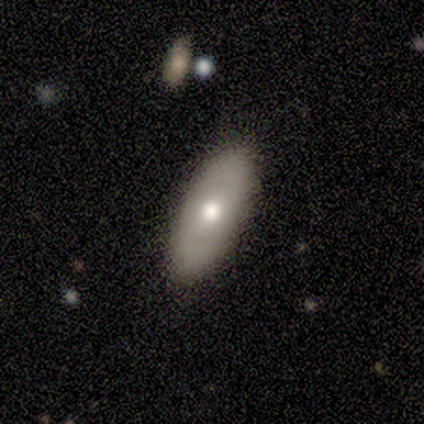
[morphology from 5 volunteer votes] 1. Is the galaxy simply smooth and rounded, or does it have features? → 80% smooth, 20% featured or disk, 0% star or artifact.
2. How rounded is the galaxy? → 100% in between, 0% round, 0% cigar-shaped.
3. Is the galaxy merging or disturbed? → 100% none, 0% minor disturbance, 0% major disturbance, 0% merger.